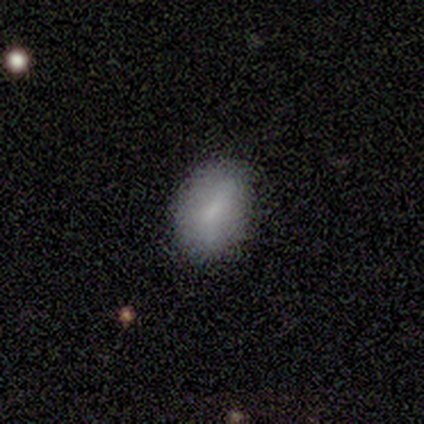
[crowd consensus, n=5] A smooth galaxy with no disk features (40%, tied with featured or disk) that is in between round and cigar-shaped (100%).

Vote fractions:
- Smooth or featured? smooth: 40% (tied) / featured or disk: 40% (tied) / star or artifact: 20%
- How rounded? in between: 100% / round: 0% / cigar-shaped: 0%
- Merging? none: 100% / minor disturbance: 0% / major disturbance: 0% / merger: 0%